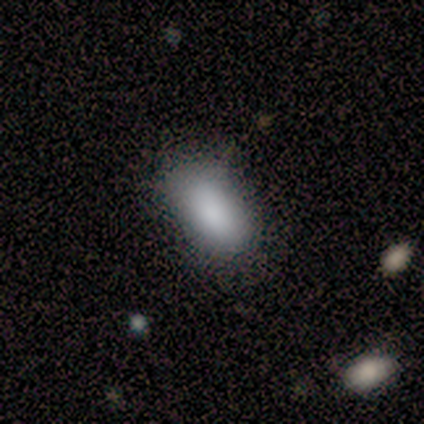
Smooth or featured?
  - smooth: 100% *
  - featured or disk: 0%
  - star or artifact: 0%
How rounded?
  - in between: 75% *
  - cigar-shaped: 25%
  - round: 0%
Merging?
  - none: 100% *
  - minor disturbance: 0%
  - major disturbance: 0%
  - merger: 0%